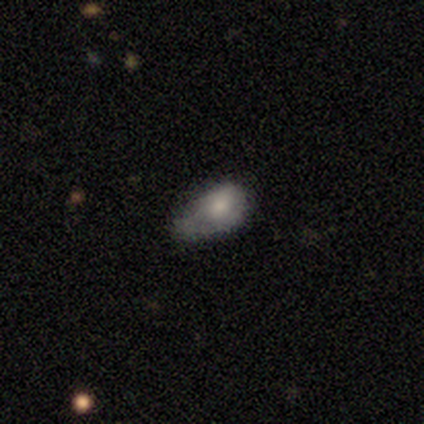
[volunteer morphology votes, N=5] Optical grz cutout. It shows a smooth galaxy with no disk features (60%) that is in between round and cigar-shaped (100%). Merging: major disturbance (60%).